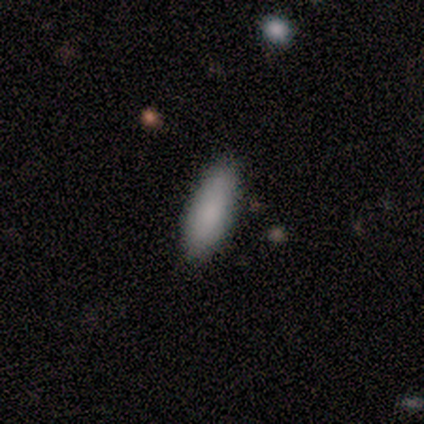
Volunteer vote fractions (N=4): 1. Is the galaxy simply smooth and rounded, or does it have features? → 75% smooth, 25% star or artifact, 0% featured or disk.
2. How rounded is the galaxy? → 67% in between, 33% cigar-shaped, 0% round.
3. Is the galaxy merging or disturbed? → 100% none, 0% minor disturbance, 0% major disturbance, 0% merger.